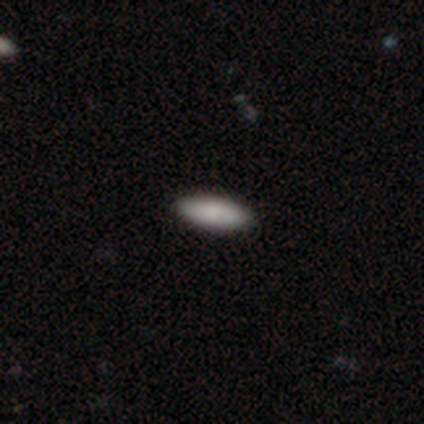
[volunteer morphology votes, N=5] Volunteers were most divided on "merging": none: 60%, minor disturbance: 40%, major disturbance: 0%, merger: 0%. More confident: smooth or featured — smooth (100%); how rounded — in between (80%).